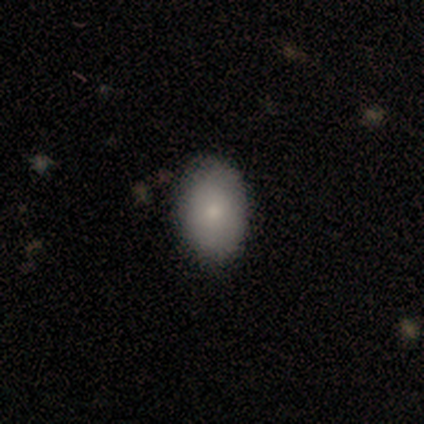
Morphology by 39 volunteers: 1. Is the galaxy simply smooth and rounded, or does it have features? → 82% smooth, 10% featured or disk, 8% star or artifact.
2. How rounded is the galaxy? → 91% in between, 9% round, 0% cigar-shaped.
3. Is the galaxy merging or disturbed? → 81% none, 19% minor disturbance, 0% major disturbance, 0% merger.